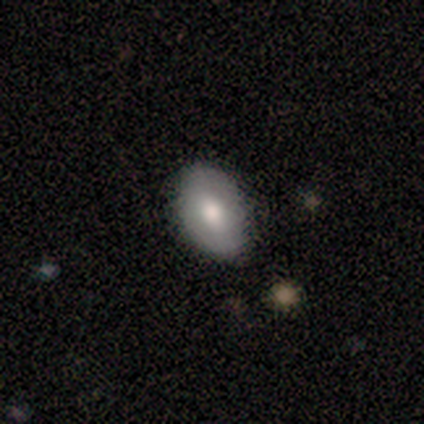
smooth-or-featured: featured or disk: 67% | smooth: 33% | star or artifact: 0%
  disk-edge-on: no: 100% | yes: 0%
    bar: weak: 50% (tied) | no: 50% (tied) | strong: 0%
    has-spiral-arms: no: 100% | yes: 0%
    bulge-size: large: 100% | dominant: 0% | moderate: 0% | small: 0% | none: 0%
  merging: none: 67% | minor disturbance: 33% | major disturbance: 0% | merger: 0%